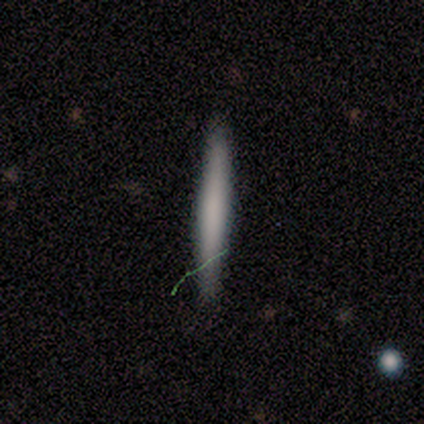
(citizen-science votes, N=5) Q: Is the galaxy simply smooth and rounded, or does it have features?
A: smooth — 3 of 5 (60%).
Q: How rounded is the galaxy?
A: cigar-shaped — 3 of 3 (100%).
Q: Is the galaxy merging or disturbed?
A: none — 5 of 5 (100%).